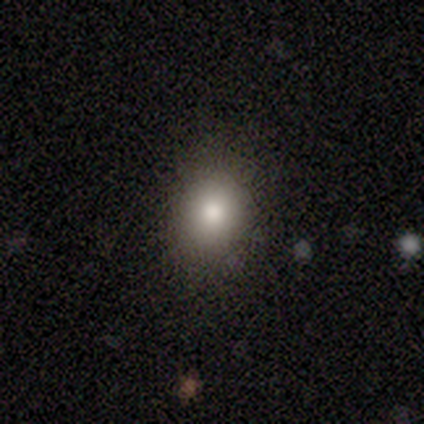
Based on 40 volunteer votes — Volunteers were most divided on "how rounded": round: 53%, in between: 47%, cigar-shaped: 0%. More confident: merging — none (91%); smooth or featured — smooth (75%).